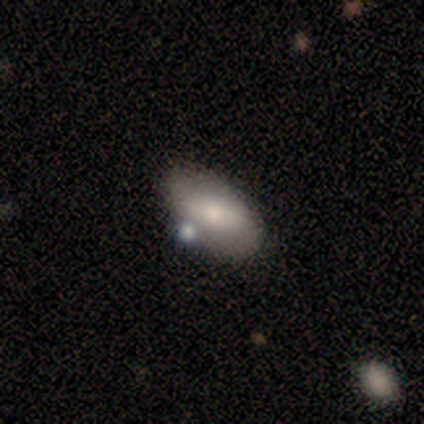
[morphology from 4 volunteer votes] This is clearly a smooth galaxy (100%). How rounded: clearly in between (100%). Merging: clearly none (100%).